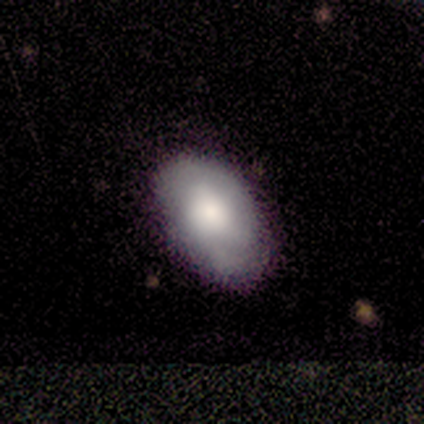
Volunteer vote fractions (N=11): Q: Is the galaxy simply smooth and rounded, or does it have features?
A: smooth — 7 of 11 (64%).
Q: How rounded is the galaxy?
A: in between — 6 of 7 (86%).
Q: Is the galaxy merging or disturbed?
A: none — 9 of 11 (82%).